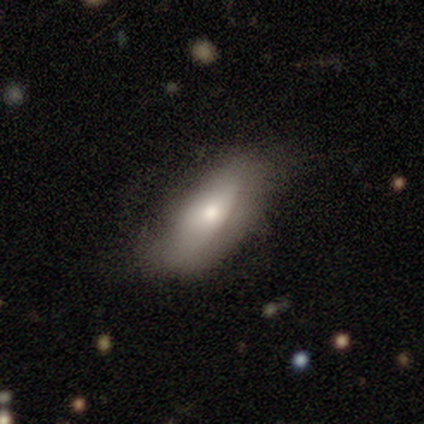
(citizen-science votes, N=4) This is likely a smooth galaxy (75%). How rounded: clearly in between (100%). Merging: possibly none (50%, tied with minor disturbance).